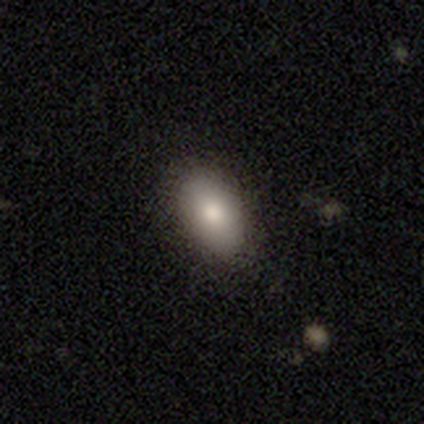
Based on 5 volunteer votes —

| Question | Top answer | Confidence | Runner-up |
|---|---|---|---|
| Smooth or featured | smooth | 100% | — |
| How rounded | in between | 80% | round (20%) |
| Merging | none | 100% | — |